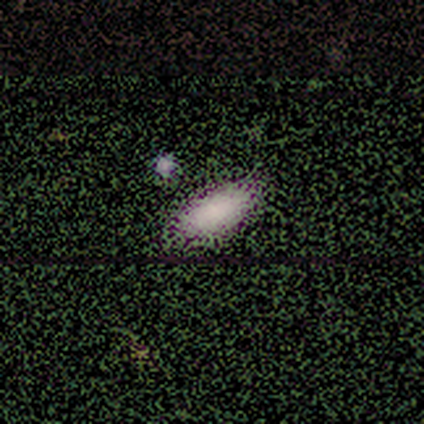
A smooth galaxy with no disk features (69%) that is in between round and cigar-shaped (93%).

Vote fractions:
- Smooth or featured? smooth: 69% / star or artifact: 23% / featured or disk: 8%
- How rounded? in between: 93% / cigar-shaped: 7% / round: 0%
- Merging? none: 70% / merger: 10% / minor disturbance: 7% / major disturbance: 3%